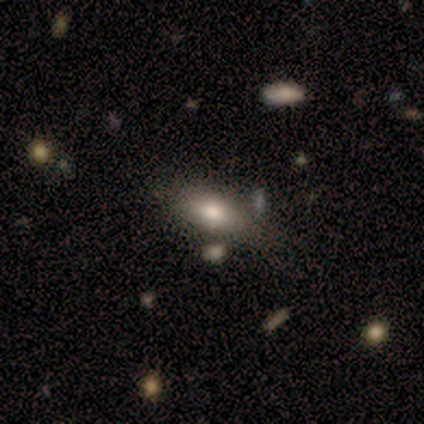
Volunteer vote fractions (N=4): This appears to be a smooth galaxy with no disk features (50%, tied with featured or disk) that is in between round and cigar-shaped (100%). Merging: none (75%).